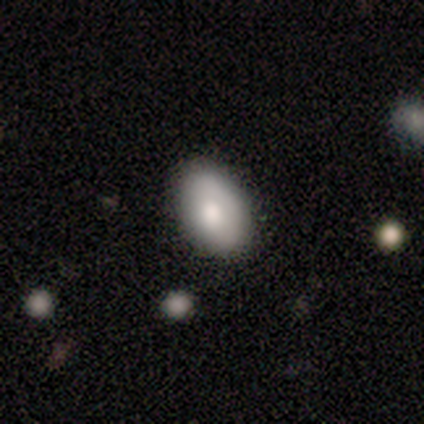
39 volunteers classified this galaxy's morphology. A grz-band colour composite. It shows a smooth galaxy with no disk features (77%) that is in between round and cigar-shaped (83%). Merging: none (79%).